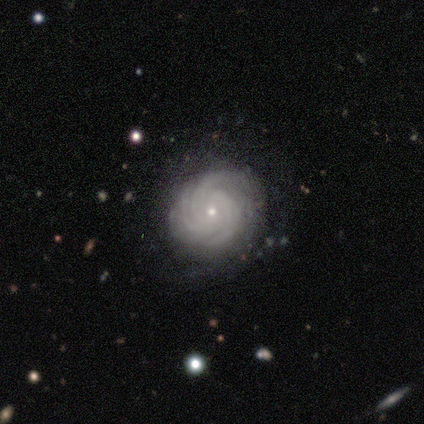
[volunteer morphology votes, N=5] smooth_or_featured: featured or disk (p=0.80) [alt: star or artifact p=0.20]
disk_edge_on: no (p=1.00)
bar: no (p=1.00)
has_spiral_arms: yes (p=1.00)
spiral_winding: tight (p=0.75) [alt: medium p=0.25]
spiral_arm_count: 3 (p=0.25) [tied with: 4 p=0.25, more than 4 p=0.25, can't tell p=0.25]
bulge_size: small (p=0.75) [alt: moderate p=0.25]
merging: none (p=0.75) [alt: minor disturbance p=0.25]